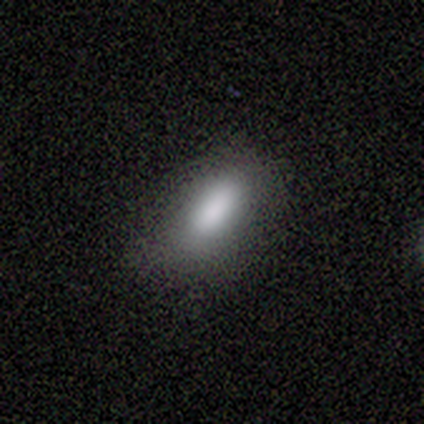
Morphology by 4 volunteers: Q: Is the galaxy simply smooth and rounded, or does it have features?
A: smooth — 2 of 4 (50%).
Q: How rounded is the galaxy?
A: in between — 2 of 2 (100%).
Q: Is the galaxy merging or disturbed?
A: none — 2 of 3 (67%).